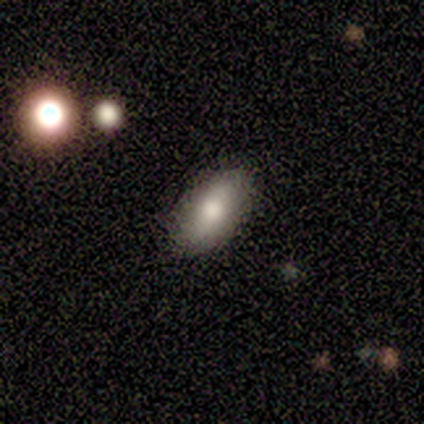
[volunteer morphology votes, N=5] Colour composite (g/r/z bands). It shows a smooth galaxy with no disk features (60%) that is in between round and cigar-shaped (100%). Merging: none (80%).